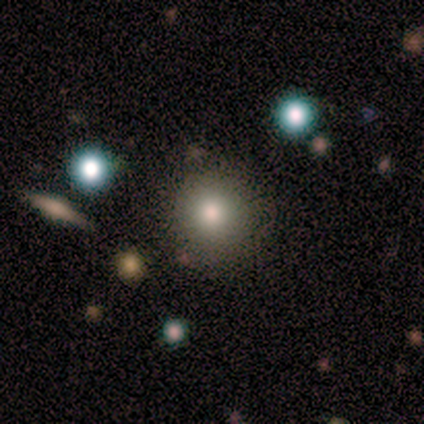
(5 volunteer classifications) smooth 80%, star or artifact 20%, featured or disk 0%. Down the decision tree: how rounded — round (100%); merging — none (100%).